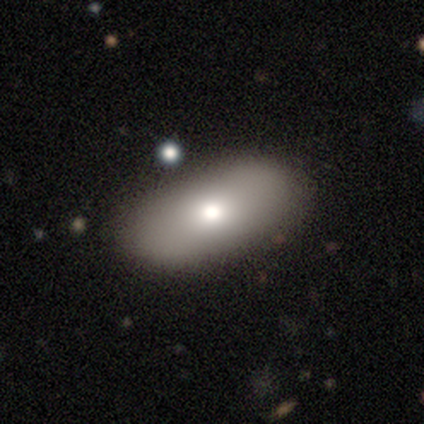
This appears to be a smooth galaxy with no disk features (60%) that is in between round and cigar-shaped (67%). Merging: none (100%).